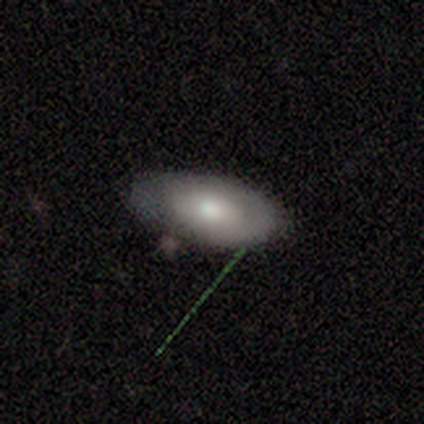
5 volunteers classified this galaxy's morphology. featured or disk 60%, smooth 40%, star or artifact 0%. Down the decision tree: edge-on disk — no (67%); bar — no (100%); spiral arms — yes (100%); spiral arm count — 1 (100%); spiral winding — tight (100%); bulge size — moderate (100%); merging — none (80%).